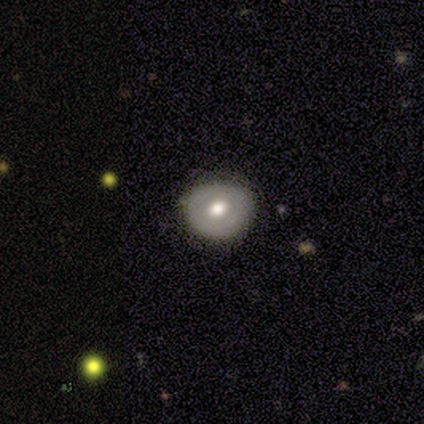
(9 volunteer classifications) A smooth galaxy with no disk features (67%) that is round (67%). Merging: none (100%).